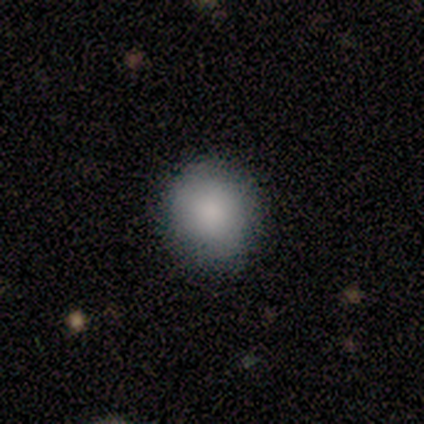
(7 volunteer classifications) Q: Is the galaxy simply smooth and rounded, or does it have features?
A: smooth — 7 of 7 (100%).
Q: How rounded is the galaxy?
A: round — 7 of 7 (100%).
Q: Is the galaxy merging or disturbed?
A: none — 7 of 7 (100%).